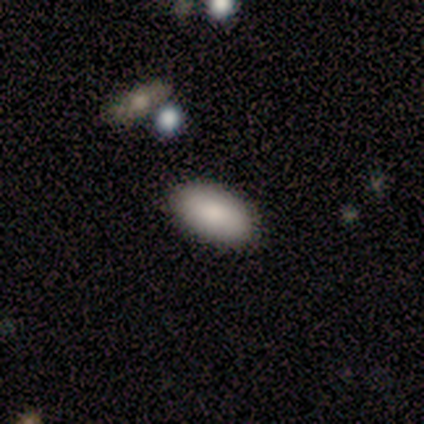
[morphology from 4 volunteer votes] type=smooth (100%); roundness=in between (100%); merging=none (100%).